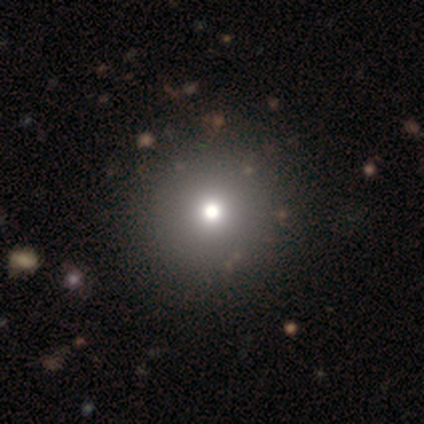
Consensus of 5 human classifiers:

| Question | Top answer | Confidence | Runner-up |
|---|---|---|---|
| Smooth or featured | smooth | 80% | star or artifact (20%) |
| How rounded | round | 100% | — |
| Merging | none | 100% | — |